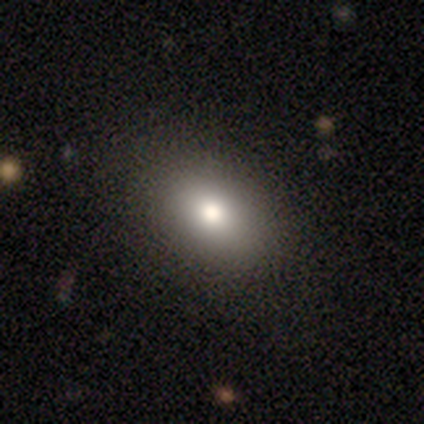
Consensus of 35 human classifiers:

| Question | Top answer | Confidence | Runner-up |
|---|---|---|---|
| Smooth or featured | smooth | 77% | featured or disk (11%) |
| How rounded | in between | 85% | round (15%) |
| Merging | none | 97% | minor disturbance (3%) |